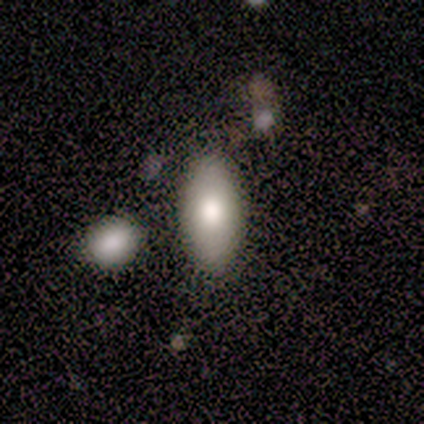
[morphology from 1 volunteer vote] star or artifact 100%, smooth 0%, featured or disk 0%.